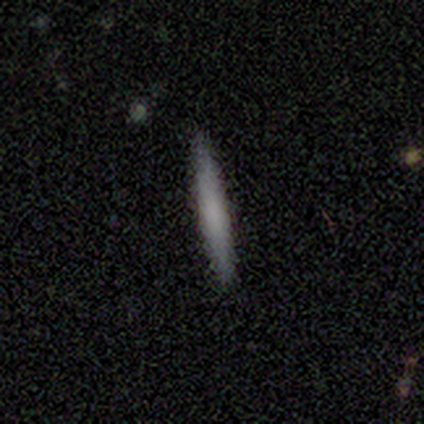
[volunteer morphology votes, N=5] A smooth galaxy with no disk features (80%) that is cigar-shaped (100%).

Vote fractions:
- Smooth or featured? smooth: 80% / featured or disk: 20% / star or artifact: 0%
- How rounded? cigar-shaped: 100% / round: 0% / in between: 0%
- Merging? none: 80% / merger: 20% / minor disturbance: 0% / major disturbance: 0%